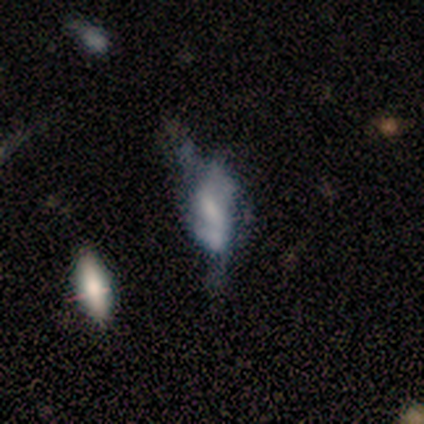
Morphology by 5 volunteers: Smooth or featured?
  - featured or disk: 60% *
  - smooth: 40%
  - star or artifact: 0%
Edge-on disk?
  - no: 100% *
  - yes: 0%
Bar?
  - strong: 33% * (tied)
  - weak: 33% * (tied)
  - no: 33% * (tied)
Spiral arms?
  - yes: 67% *
  - no: 33%
Spiral winding?
  - medium: 50% * (tied)
  - loose: 50% * (tied)
  - tight: 0%
Spiral arm count?
  - 2: 50% * (tied)
  - can't tell: 50% * (tied)
  - 1: 0%
  - 3: 0%
  - 4: 0%
  - more than 4: 0%
Bulge size?
  - moderate: 67% *
  - large: 33%
  - dominant: 0%
  - small: 0%
  - none: 0%
Merging?
  - major disturbance: 40% * (tied)
  - merger: 40% * (tied)
  - none: 20%
  - minor disturbance: 0%